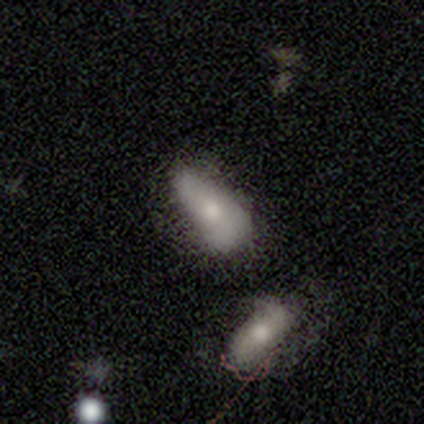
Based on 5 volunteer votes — This is clearly a smooth galaxy (80%). How rounded: clearly in between (100%). Merging: marginally major disturbance (40%).